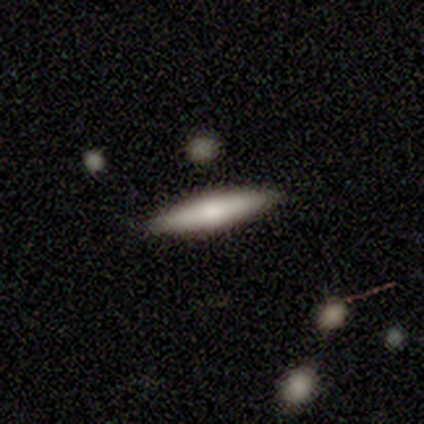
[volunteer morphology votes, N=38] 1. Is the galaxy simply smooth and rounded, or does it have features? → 53% smooth, 45% featured or disk, 3% star or artifact.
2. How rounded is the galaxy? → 90% cigar-shaped, 10% in between, 0% round.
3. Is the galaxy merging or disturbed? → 92% none, 5% minor disturbance, 3% merger, 0% major disturbance.